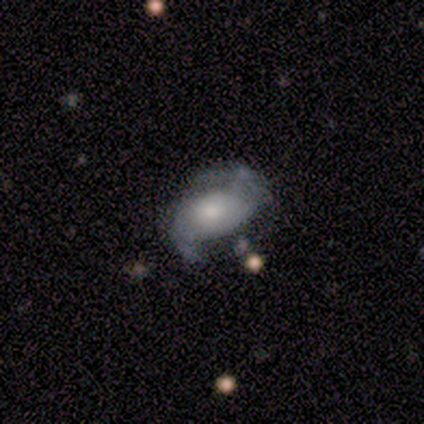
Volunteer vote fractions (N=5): A smooth galaxy with no disk features (40%, tied with featured or disk) that is in between round and cigar-shaped (100%). Merging: minor disturbance (75%).